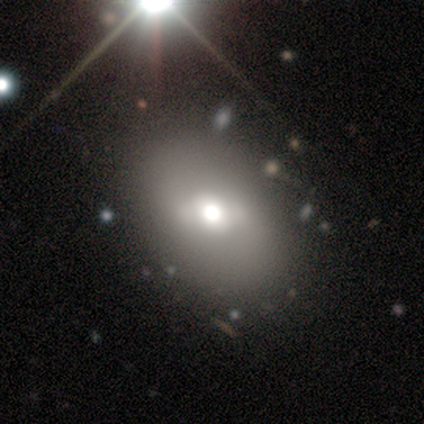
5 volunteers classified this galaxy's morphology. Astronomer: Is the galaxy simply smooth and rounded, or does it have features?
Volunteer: featured or disk — 60%.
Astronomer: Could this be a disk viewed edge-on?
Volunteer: no — 100%.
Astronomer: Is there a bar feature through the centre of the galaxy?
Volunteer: strong — 67%.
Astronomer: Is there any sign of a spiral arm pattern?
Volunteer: no — 100%.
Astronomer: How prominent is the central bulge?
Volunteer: large — 67%.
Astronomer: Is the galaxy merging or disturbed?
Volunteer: none — 75%.